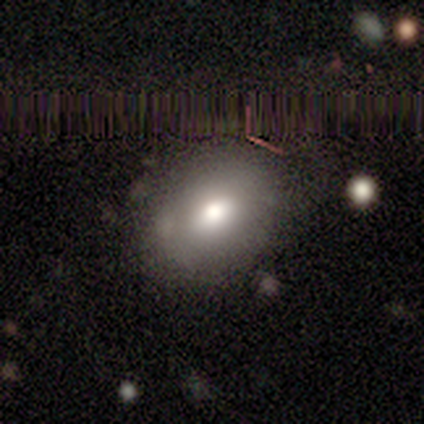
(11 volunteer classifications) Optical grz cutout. It shows a smooth galaxy with no disk features (82%) that is in between round and cigar-shaped (89%). Merging: none (90%).